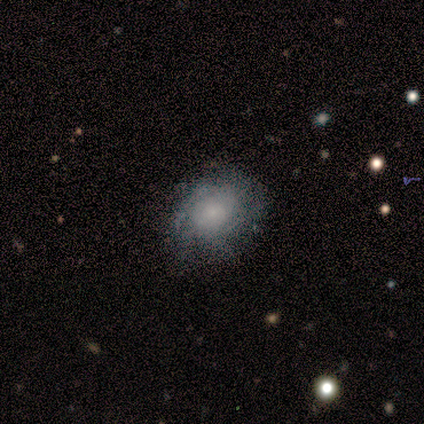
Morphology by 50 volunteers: Overall: featured or disk (54%; smooth 36%). Edge-on disk: no (100%). Bar: no (81%). Spiral arms: yes (78%). Spiral arm count: can't tell (52%; 3 14%). Spiral winding: medium (48%; tight 33%). Bulge size: small (59%). Merging: none (76%).